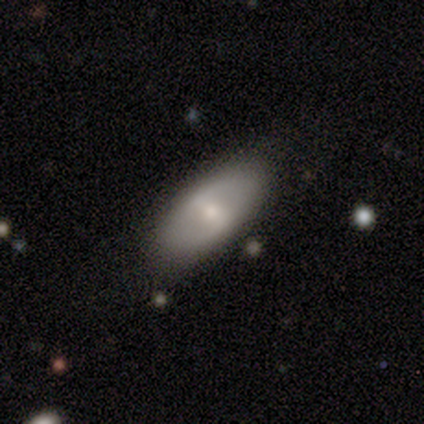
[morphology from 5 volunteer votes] Q: Smooth or featured?
A: smooth (60%); runner-up: featured or disk (40%)
Q: How rounded?
A: in between (100%)
Q: Merging?
A: none (80%); runner-up: minor disturbance (20%)